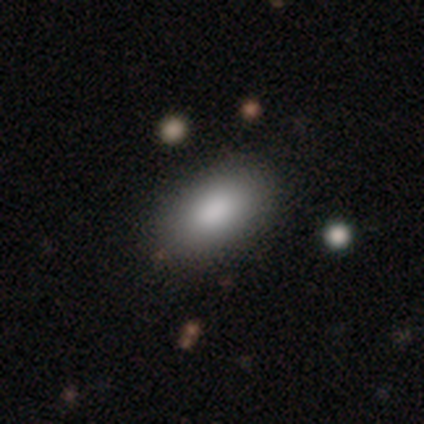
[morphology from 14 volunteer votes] This is clearly a smooth galaxy (86%). How rounded: clearly in between (92%). Merging: clearly none (92%).